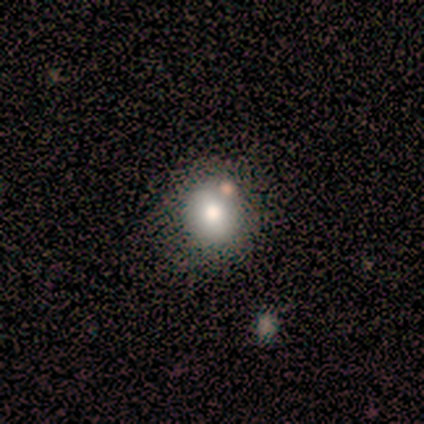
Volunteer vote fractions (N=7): Volunteers were most divided on "bar" (2-way tie): weak: 50%, no: 50%, strong: 0%; "bulge size" (2-way tie): large: 50%, moderate: 50%, dominant: 0%, small: 0%, none: 0%. Remaining: spiral arms — no (100%); merging — none (80%); edge-on disk — no (67%); smooth or featured — featured or disk (43%).